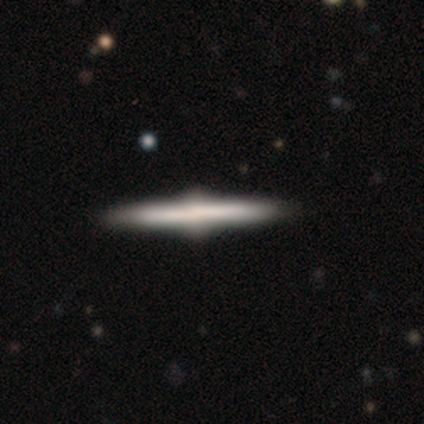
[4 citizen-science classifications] Smooth or featured? 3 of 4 (75%) said featured or disk. Edge-on disk? 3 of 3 (100%) said yes. Edge-on bulge? 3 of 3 (100%) said rounded. Merging? 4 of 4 (100%) said none.